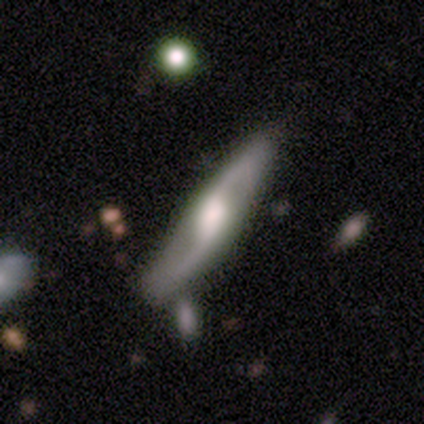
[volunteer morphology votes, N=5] A featured or disk galaxy (100%) with a strong bar (33%, tied with weak and no), 2 (100%) loose (100%) spiral arms (67%) and a moderate central bulge (67%). Merging: none (40%, tied with merger).